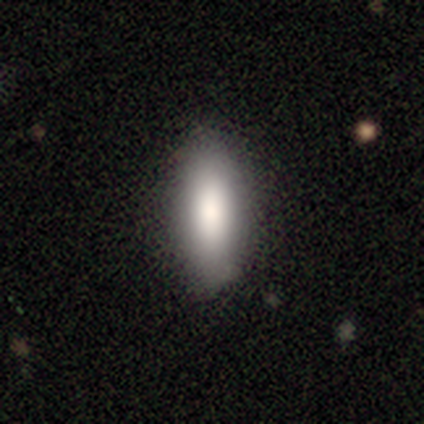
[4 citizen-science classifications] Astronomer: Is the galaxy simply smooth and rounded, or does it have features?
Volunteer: smooth — 100%.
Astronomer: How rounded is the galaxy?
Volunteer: in between — 75%.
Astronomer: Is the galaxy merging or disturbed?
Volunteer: none — 100%.